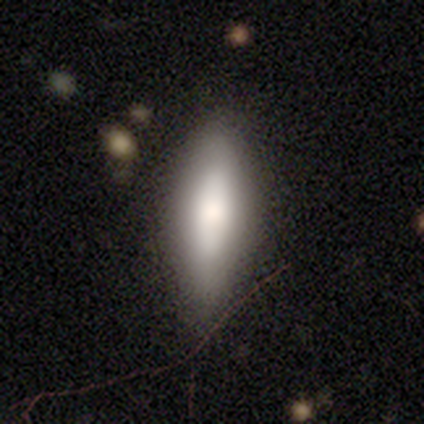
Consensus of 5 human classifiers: Morphology: type=smooth (60%); roundness=in between (100%); merging=none (80%).